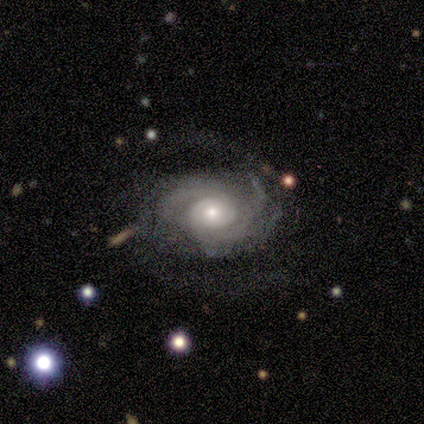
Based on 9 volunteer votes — smooth-or-featured: featured or disk: 89% | star or artifact: 11% | smooth: 0%
  disk-edge-on: no: 100% | yes: 0%
    bar: no: 88% | strong: 12% | weak: 0%
    has-spiral-arms: yes: 100% | no: 0%
      spiral-winding: tight: 62% | medium: 25% | loose: 12%
      spiral-arm-count: 2: 50% | 3: 25% | 4: 12% | can't tell: 12% | 1: 0% | more than 4: 0%
    bulge-size: small: 50% | moderate: 38% | large: 12% | dominant: 0% | none: 0%
  merging: none: 50% | minor disturbance: 38% | major disturbance: 12% | merger: 0%